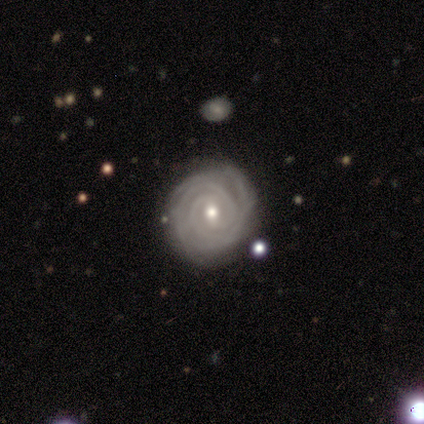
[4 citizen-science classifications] Volunteers were most divided on "spiral arm count": 2: 50%, 3: 25%, more than 4: 25%, 1: 0%, 4: 0%, can't tell: 0%. More confident: smooth or featured — featured or disk (100%); edge-on disk — no (100%); spiral arms — yes (100%); bar — weak (75%); spiral winding — tight (75%); bulge size — moderate (75%); merging — none (75%).